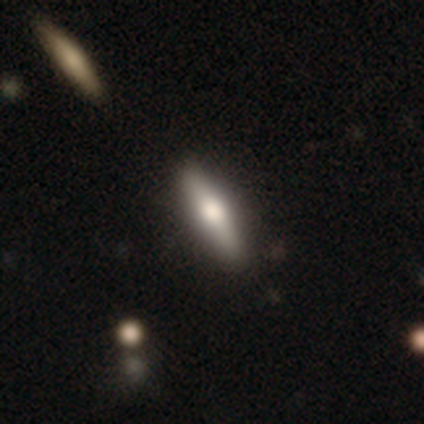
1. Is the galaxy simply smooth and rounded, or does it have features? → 67% featured or disk, 33% smooth, 0% star or artifact.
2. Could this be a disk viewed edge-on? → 100% yes, 0% no.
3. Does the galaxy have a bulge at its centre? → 100% rounded, 0% boxy, 0% none.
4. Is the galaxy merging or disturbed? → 67% none, 17% minor disturbance, 17% merger, 0% major disturbance.